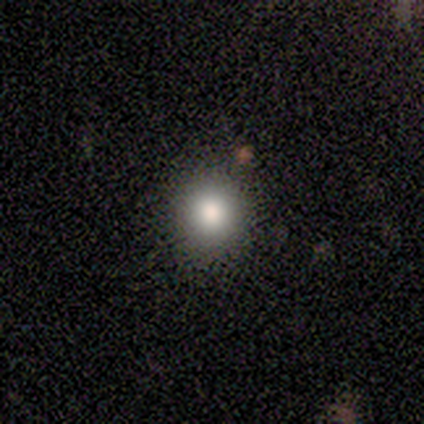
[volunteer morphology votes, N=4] Overall: smooth (100%). How rounded: round (100%). Merging: none (100%).